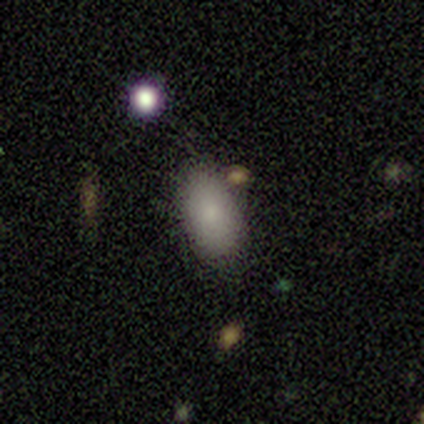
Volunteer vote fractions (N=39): smooth_or_featured: smooth (p=0.92) [alt: featured or disk p=0.05]
how_rounded: in between (p=0.94) [alt: round p=0.03]
merging: none (p=0.74) [alt: minor disturbance p=0.18]